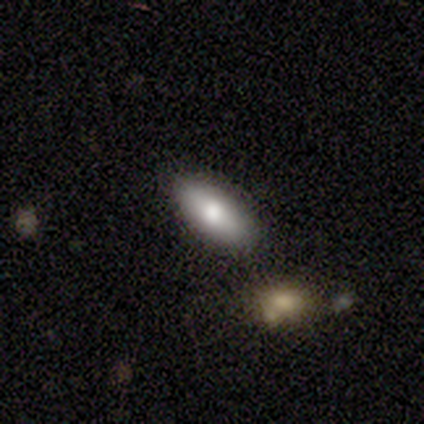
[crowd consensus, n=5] smooth 40% (tied), featured or disk 40% (tied), star or artifact 20%. Down the decision tree: how rounded — in between (100%); merging — none (75%).